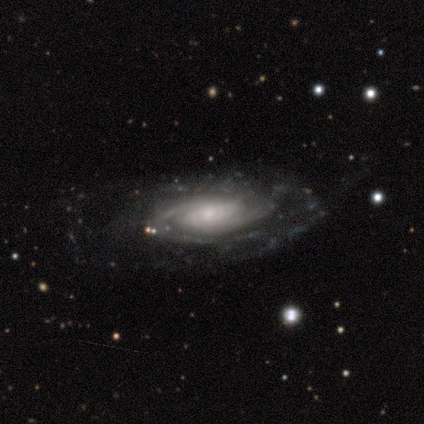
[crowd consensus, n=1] Q: Smooth or featured?
A: featured or disk (100%)
Q: Edge-on disk?
A: no (100%)
Q: Bar?
A: weak (100%)
Q: Spiral arms?
A: yes (100%)
Q: Spiral winding?
A: medium (100%)
Q: Spiral arm count?
A: 4 (100%)
Q: Bulge size?
A: small (100%)
Q: Merging?
A: minor disturbance (100%)